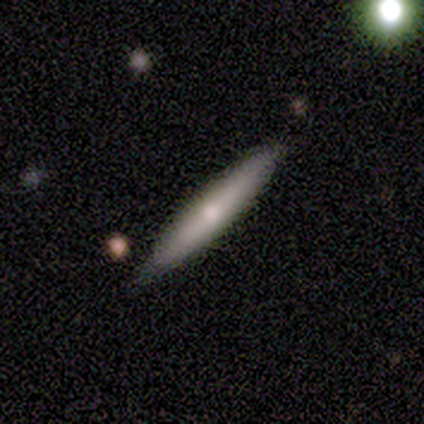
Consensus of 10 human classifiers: Smooth or featured? 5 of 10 (50%) said featured or disk. Edge-on disk? 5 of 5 (100%) said yes. Edge-on bulge? 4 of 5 (80%) said rounded. Merging? 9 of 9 (100%) said none.